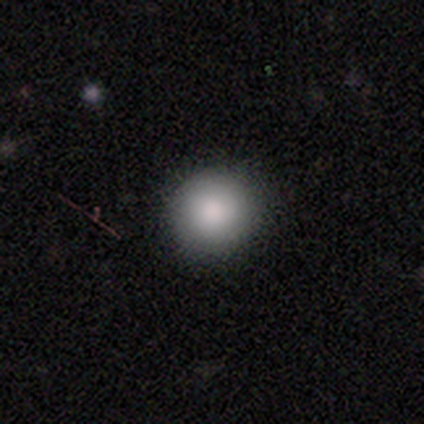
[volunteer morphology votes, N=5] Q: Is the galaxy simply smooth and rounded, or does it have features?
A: smooth — 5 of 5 (100%).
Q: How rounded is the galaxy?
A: round — 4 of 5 (80%).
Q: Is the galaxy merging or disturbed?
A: none — 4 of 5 (80%).